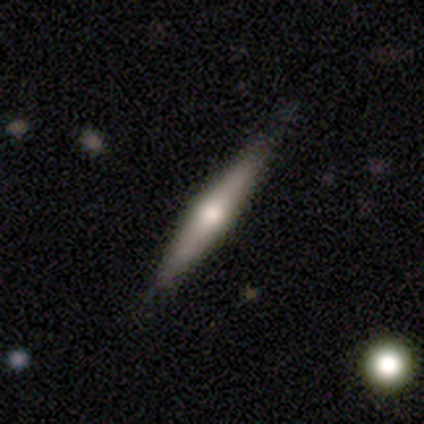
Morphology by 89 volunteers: Q: Smooth or featured?
A: featured or disk (57%); runner-up: smooth (38%)
Q: Edge-on disk?
A: yes (94%); runner-up: no (6%)
Q: Edge-on bulge?
A: rounded (92%); runner-up: none (6%)
Q: Merging?
A: none (89%); runner-up: minor disturbance (8%)